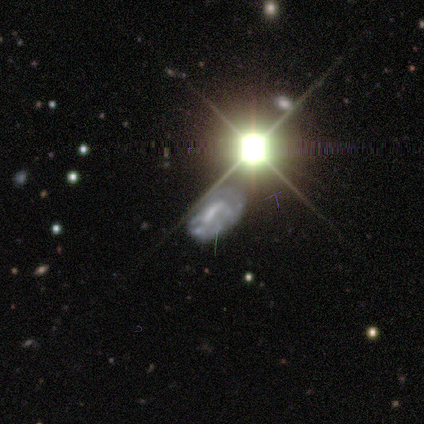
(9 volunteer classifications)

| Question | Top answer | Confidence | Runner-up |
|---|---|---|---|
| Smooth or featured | featured or disk | 67% | star or artifact (22%) |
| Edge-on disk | no | 100% | — |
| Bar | weak | 50% | strong (33%) |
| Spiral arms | yes | 67% | no (33%) |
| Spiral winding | tight | 75% | loose (25%) |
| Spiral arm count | can't tell | 50% | 1 (25%) |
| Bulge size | none | 50% | small (33%) |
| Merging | none | 43% | tied: minor disturbance (43%) |